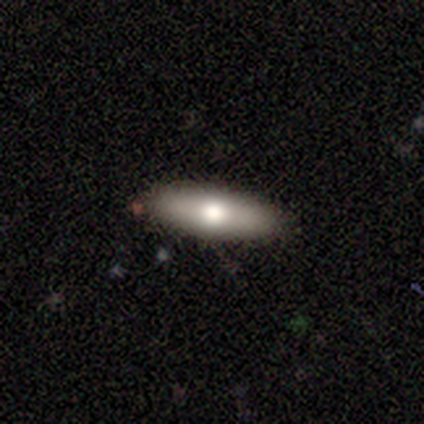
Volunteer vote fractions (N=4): A smooth galaxy with no disk features (50%, tied with featured or disk) that is cigar-shaped (100%). Merging: none (100%).